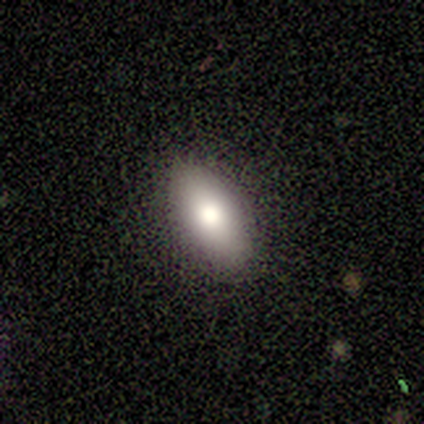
Smooth or featured?
  - smooth: 80% *
  - star or artifact: 20%
  - featured or disk: 0%
How rounded?
  - in between: 75% *
  - cigar-shaped: 25%
  - round: 0%
Merging?
  - none: 100% *
  - minor disturbance: 0%
  - major disturbance: 0%
  - merger: 0%